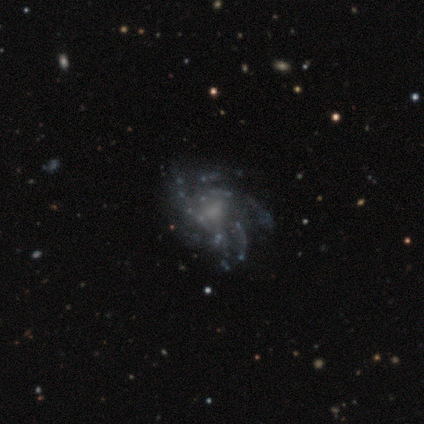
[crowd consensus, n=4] Q: Smooth or featured?
A: featured or disk (100%)
Q: Edge-on disk?
A: no (100%)
Q: Bar?
A: weak (50%); tied with: no (50%)
Q: Spiral arms?
A: yes (100%)
Q: Spiral winding?
A: medium (100%)
Q: Spiral arm count?
A: more than 4 (50%); tied with: can't tell (50%)
Q: Bulge size?
A: none (50%); runner-up: large (25%)
Q: Merging?
A: none (100%)